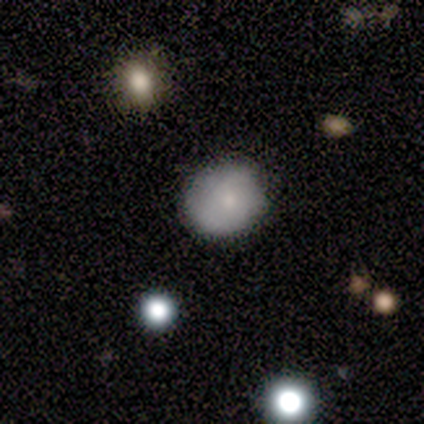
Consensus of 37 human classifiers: A smooth galaxy with no disk features (59%) that is round (91%).

Vote fractions:
- Smooth or featured? smooth: 59% / featured or disk: 32% / star or artifact: 8%
- How rounded? round: 91% / in between: 5% / cigar-shaped: 5%
- Merging? none: 74% / minor disturbance: 18% / major disturbance: 6% / merger: 3%